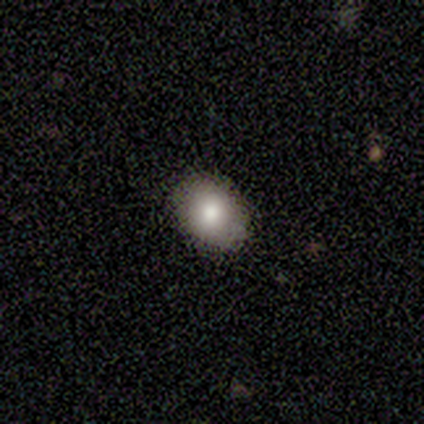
Morphology: type=smooth (100%); roundness=round (60%); merging=none (100%).